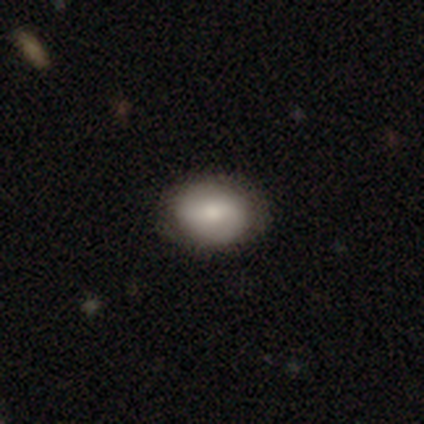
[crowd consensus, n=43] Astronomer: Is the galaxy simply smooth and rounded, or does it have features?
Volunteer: smooth — 65%.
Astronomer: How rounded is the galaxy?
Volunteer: in between — 82%.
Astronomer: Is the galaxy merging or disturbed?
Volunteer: none — 80%.